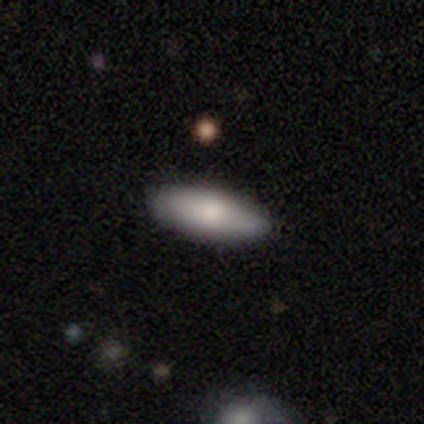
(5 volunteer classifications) smooth 100%, featured or disk 0%, star or artifact 0%. Down the decision tree: how rounded — in between (100%); merging — none (100%).